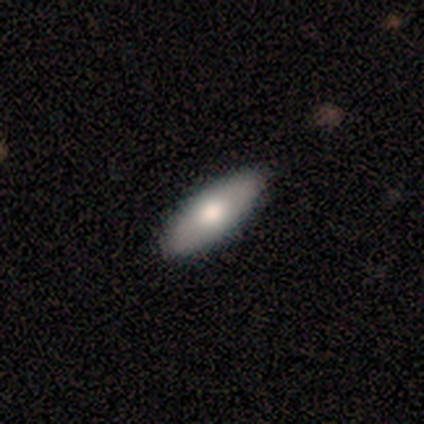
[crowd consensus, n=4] A smooth galaxy with no disk features (75%) that is in between round and cigar-shaped (67%).

Vote fractions:
- Smooth or featured? smooth: 75% / featured or disk: 25% / star or artifact: 0%
- How rounded? in between: 67% / cigar-shaped: 33% / round: 0%
- Merging? none: 75% / minor disturbance: 25% / major disturbance: 0% / merger: 0%